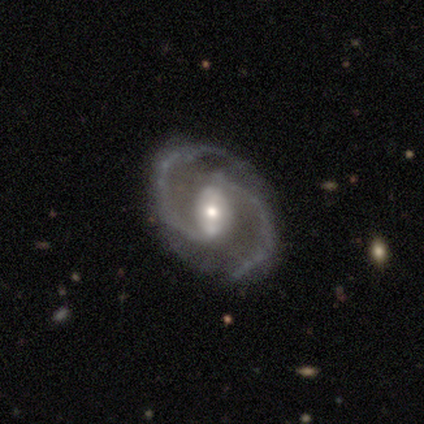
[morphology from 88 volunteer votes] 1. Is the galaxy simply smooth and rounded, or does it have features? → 94% featured or disk, 3% star or artifact, 2% smooth.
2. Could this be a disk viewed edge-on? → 98% no, 2% yes.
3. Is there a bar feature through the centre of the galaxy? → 49% strong, 42% weak, 9% no.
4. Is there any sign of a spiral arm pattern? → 99% yes, 1% no.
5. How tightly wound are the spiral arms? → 60% medium, 25% tight, 15% loose.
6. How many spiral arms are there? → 99% 2, 1% 3, 0% 1, 0% 4, 0% more than 4, 0% can't tell.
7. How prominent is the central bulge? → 49% moderate, 42% small, 6% large, 1% dominant, 1% none.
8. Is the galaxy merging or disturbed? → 86% none, 8% minor disturbance, 5% major disturbance, 1% merger.